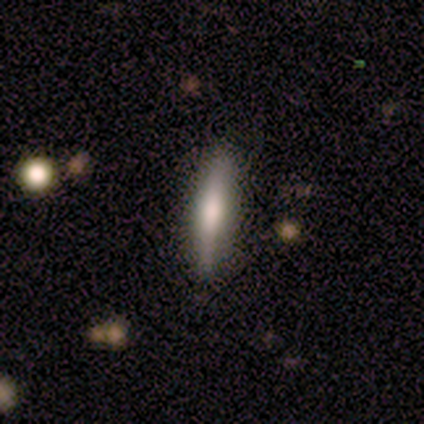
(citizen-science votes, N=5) Smooth or featured? 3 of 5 (60%) said featured or disk. Edge-on disk? 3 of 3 (100%) said yes. Edge-on bulge? 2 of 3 (67%) said rounded. Merging? 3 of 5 (60%) said none.